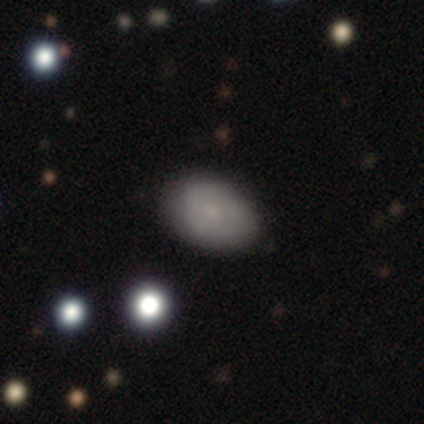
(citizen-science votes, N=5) Q: Smooth or featured?
A: smooth (80%); runner-up: star or artifact (20%)
Q: How rounded?
A: in between (100%)
Q: Merging?
A: none (50%); tied with: minor disturbance (50%)